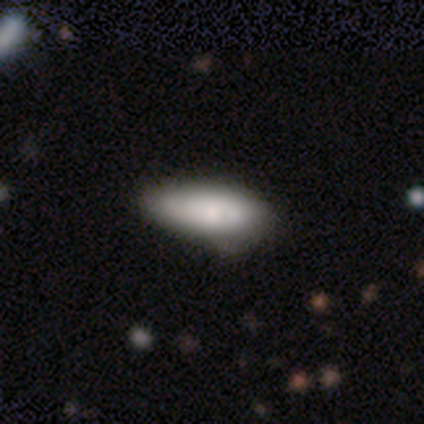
A smooth galaxy with no disk features (71%) that is in between round and cigar-shaped (78%).

Vote fractions:
- Smooth or featured? smooth: 71% / featured or disk: 24% / star or artifact: 5%
- How rounded? in between: 78% / cigar-shaped: 22% / round: 0%
- Merging? none: 33% / minor disturbance: 31% / major disturbance: 6% / merger: 0%